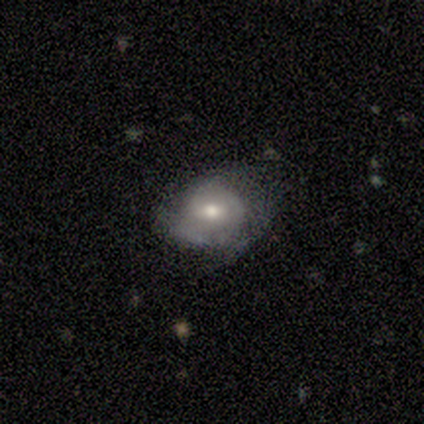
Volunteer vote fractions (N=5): Volunteers were most divided on "smooth or featured": smooth: 60%, featured or disk: 40%, star or artifact: 0%. More confident: merging — none (80%); how rounded — round (67%).